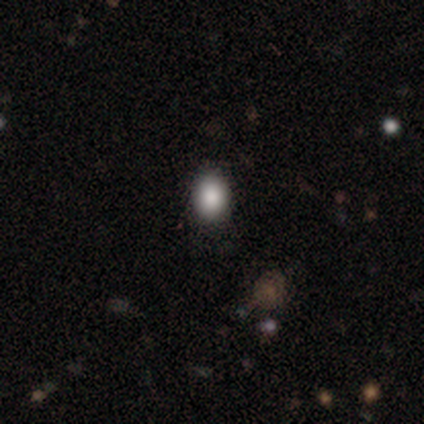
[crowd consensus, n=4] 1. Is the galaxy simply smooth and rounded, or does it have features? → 100% smooth, 0% featured or disk, 0% star or artifact.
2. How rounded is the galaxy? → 50% round (tied), 50% in between (tied), 0% cigar-shaped.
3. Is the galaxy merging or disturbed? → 50% none (tied), 50% minor disturbance (tied), 0% major disturbance, 0% merger.